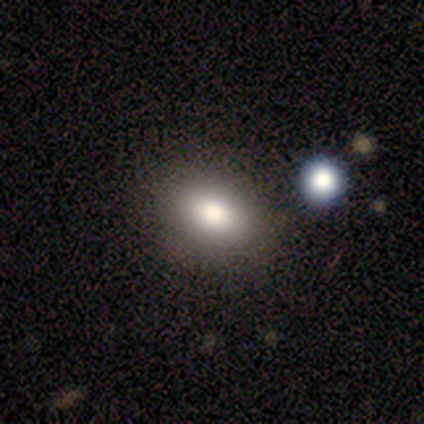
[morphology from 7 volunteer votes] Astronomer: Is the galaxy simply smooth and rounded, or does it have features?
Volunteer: smooth — 86%.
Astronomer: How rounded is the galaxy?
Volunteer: in between — 67%.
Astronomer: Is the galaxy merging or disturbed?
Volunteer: none — 100%.